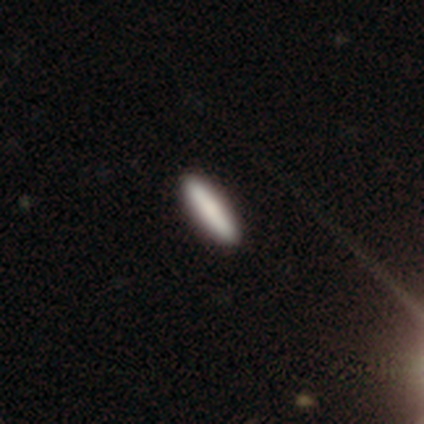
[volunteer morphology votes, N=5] Smooth or featured?
  - smooth: 80% *
  - featured or disk: 20%
  - star or artifact: 0%
How rounded?
  - cigar-shaped: 100% *
  - round: 0%
  - in between: 0%
Merging?
  - none: 100% *
  - minor disturbance: 0%
  - major disturbance: 0%
  - merger: 0%